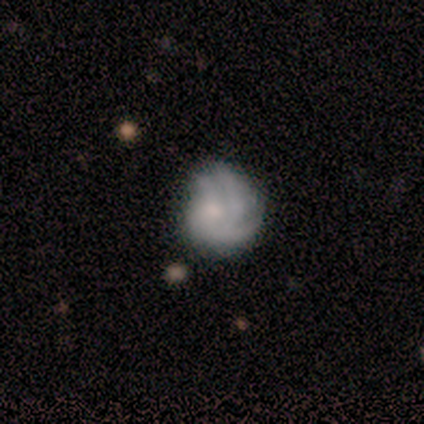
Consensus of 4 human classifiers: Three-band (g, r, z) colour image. It shows a smooth galaxy with no disk features (50%, tied with featured or disk) that is round (100%). Merging: minor disturbance (50%, tied with major disturbance).